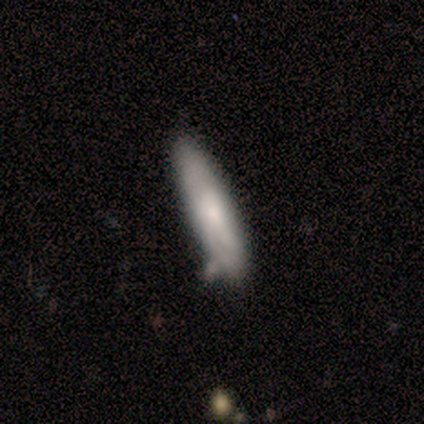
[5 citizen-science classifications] smooth 100%, featured or disk 0%, star or artifact 0%. Down the decision tree: how rounded — cigar-shaped (60%); merging — none (80%).